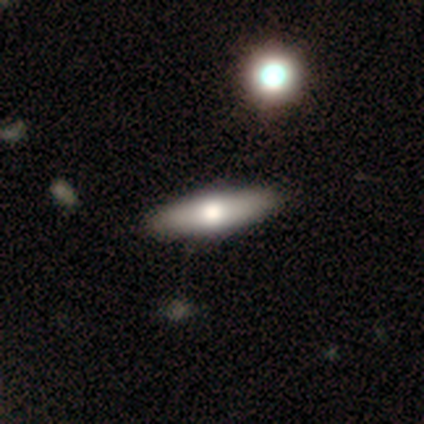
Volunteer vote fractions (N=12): A smooth galaxy with no disk features (58%) that is cigar-shaped (71%).

Vote fractions:
- Smooth or featured? smooth: 58% / featured or disk: 42% / star or artifact: 0%
- How rounded? cigar-shaped: 71% / in between: 29% / round: 0%
- Merging? none: 100% / minor disturbance: 0% / major disturbance: 0% / merger: 0%